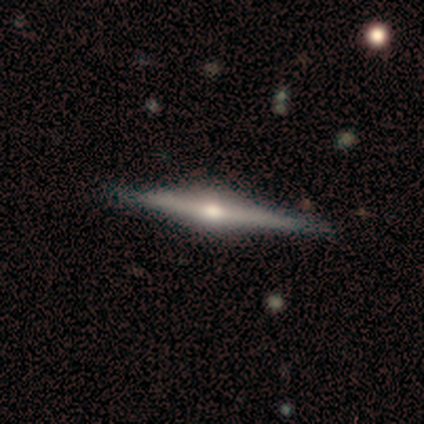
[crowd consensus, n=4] Smooth or featured?
  - featured or disk: 100% *
  - smooth: 0%
  - star or artifact: 0%
Edge-on disk?
  - yes: 100% *
  - no: 0%
Edge-on bulge?
  - rounded: 100% *
  - boxy: 0%
  - none: 0%
Merging?
  - none: 75% *
  - minor disturbance: 25%
  - major disturbance: 0%
  - merger: 0%